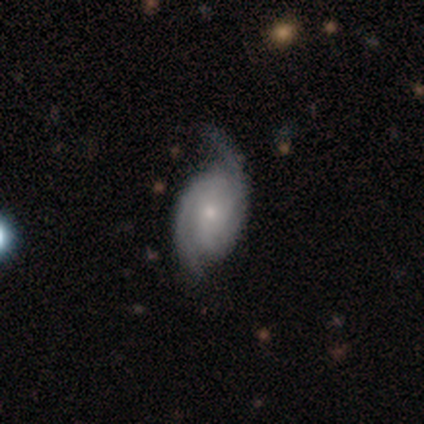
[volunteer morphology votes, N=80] Overall: featured or disk (95%). Edge-on disk: no (99%). Bar: no (69%). Spiral arms: yes (96%). Spiral arm count: 2 (88%). Spiral winding: tight (40%; medium 39%). Bulge size: small (72%). Merging: none (36%; minor disturbance 9%).